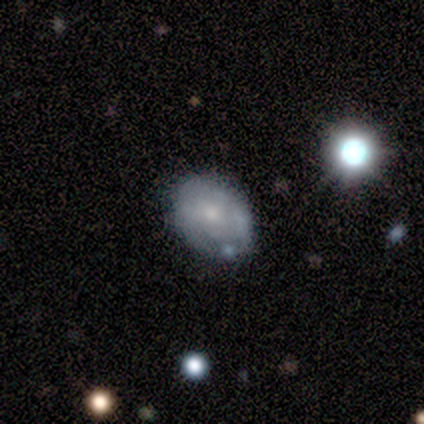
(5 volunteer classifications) Morphology: type=featured or disk (60%); edge-on=no (100%); bar=no (100%); spiral arms=no (67%); bulge=moderate (67%); merging=none (80%).